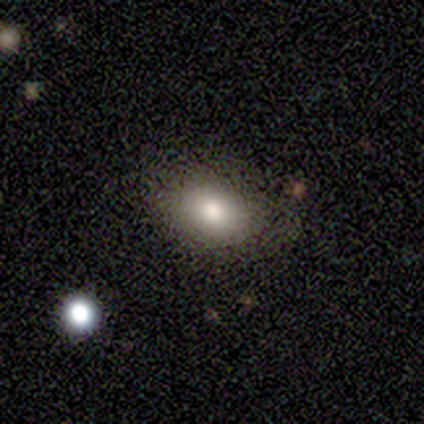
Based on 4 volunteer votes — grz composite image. It shows a smooth galaxy with no disk features (75%) that is in between round and cigar-shaped (67%). Merging: none (100%).